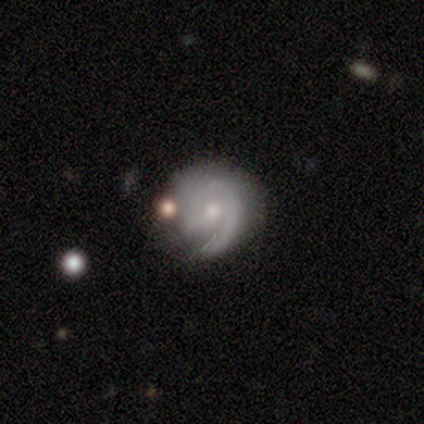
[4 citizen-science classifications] Q: Smooth or featured?
A: featured or disk (75%); runner-up: smooth (25%)
Q: Edge-on disk?
A: no (100%)
Q: Bar?
A: weak (67%); runner-up: no (33%)
Q: Spiral arms?
A: yes (67%); runner-up: no (33%)
Q: Spiral winding?
A: tight (100%)
Q: Spiral arm count?
A: 1 (50%); tied with: can't tell (50%)
Q: Bulge size?
A: moderate (67%); runner-up: small (33%)
Q: Merging?
A: none (75%); runner-up: merger (25%)